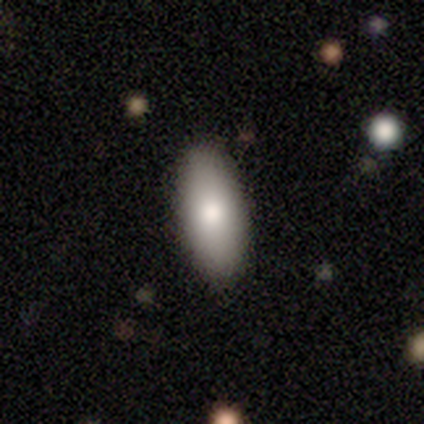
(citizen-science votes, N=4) This appears to be a smooth galaxy with no disk features (100%) that is in between round and cigar-shaped (100%). Merging: none (100%).